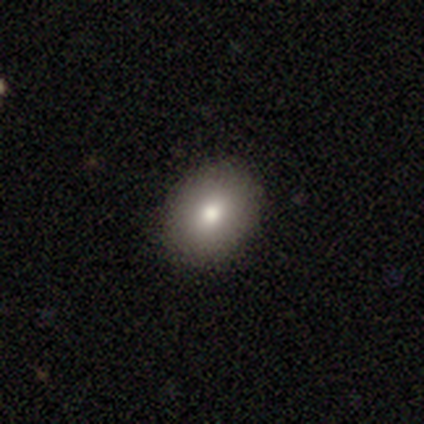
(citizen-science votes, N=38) Smooth or featured? smooth (79%)
How rounded? in between (53%)
Merging? none (94%)